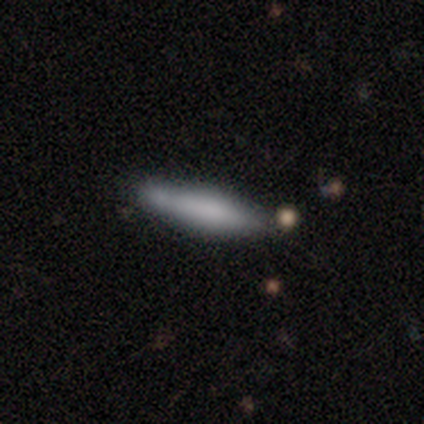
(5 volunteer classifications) Smooth or featured?
  - smooth: 80% *
  - featured or disk: 20%
  - star or artifact: 0%
How rounded?
  - cigar-shaped: 75% *
  - in between: 25%
  - round: 0%
Merging?
  - none: 60% *
  - minor disturbance: 40%
  - major disturbance: 0%
  - merger: 0%